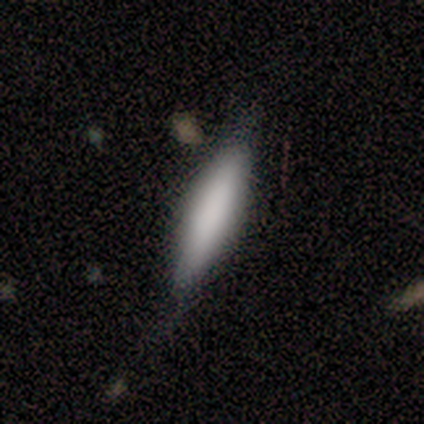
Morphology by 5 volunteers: This is clearly a smooth galaxy (80%). How rounded: clearly cigar-shaped (100%). Merging: possibly minor disturbance (50%).